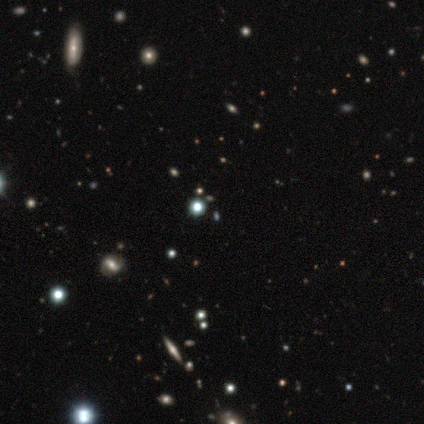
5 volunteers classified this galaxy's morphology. Overall: star or artifact (60%; smooth 40%).